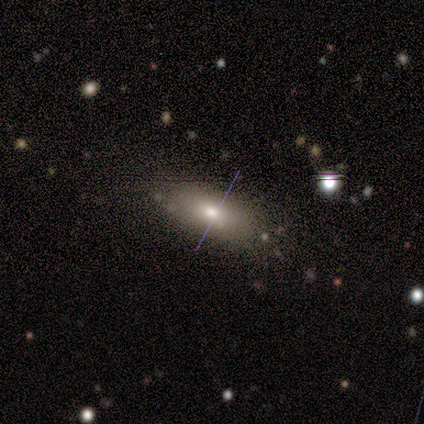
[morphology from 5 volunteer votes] Q: Smooth or featured?
A: smooth (60%); runner-up: featured or disk (40%)
Q: How rounded?
A: in between (67%); runner-up: cigar-shaped (33%)
Q: Merging?
A: none (80%); runner-up: minor disturbance (20%)